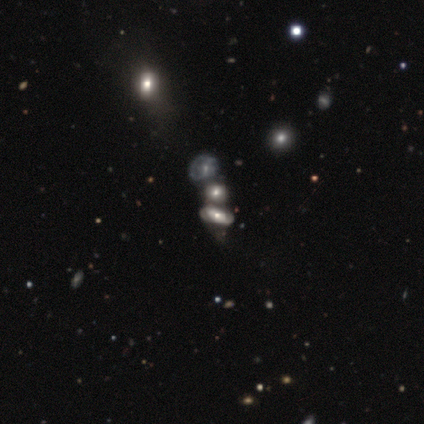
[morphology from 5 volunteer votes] type=smooth (60%); roundness=in between (67%); merging=none (40%, tied with merger).